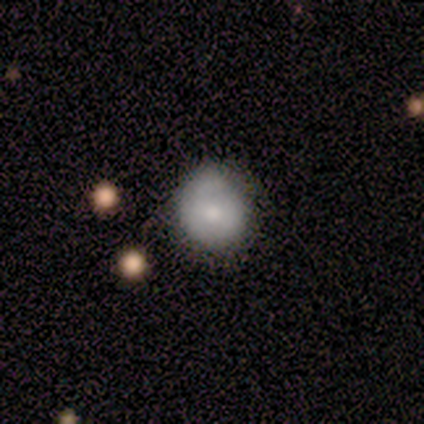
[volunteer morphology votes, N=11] smooth-or-featured: smooth: 45% | featured or disk: 36% | star or artifact: 18%
  how-rounded: round: 80% | in between: 20% | cigar-shaped: 0%
  merging: none: 100% | minor disturbance: 0% | major disturbance: 0% | merger: 0%